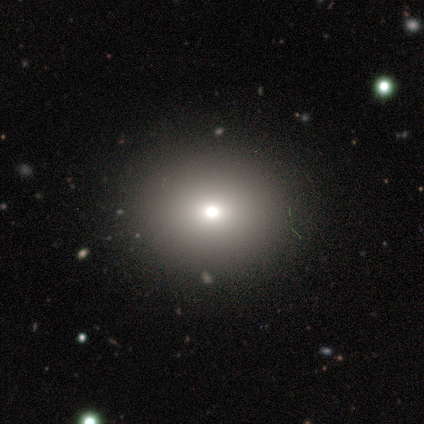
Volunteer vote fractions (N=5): This is clearly a smooth galaxy (80%). How rounded: clearly in between (100%). Merging: clearly none (100%).